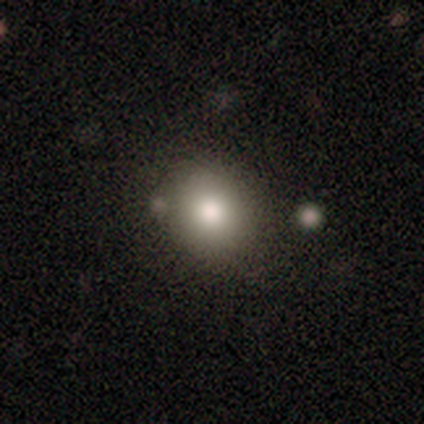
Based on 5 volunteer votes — Morphology: type=smooth (80%); roundness=round (100%); merging=none (60%).